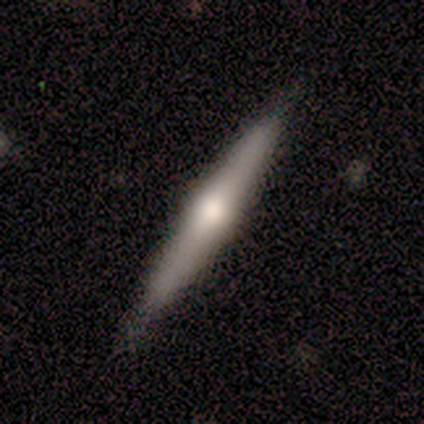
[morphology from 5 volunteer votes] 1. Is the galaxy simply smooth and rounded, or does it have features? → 80% featured or disk, 20% star or artifact, 0% smooth.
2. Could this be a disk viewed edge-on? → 100% yes, 0% no.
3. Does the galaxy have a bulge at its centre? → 100% rounded, 0% boxy, 0% none.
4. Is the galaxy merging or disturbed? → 50% none (tied), 50% minor disturbance (tied), 0% major disturbance, 0% merger.